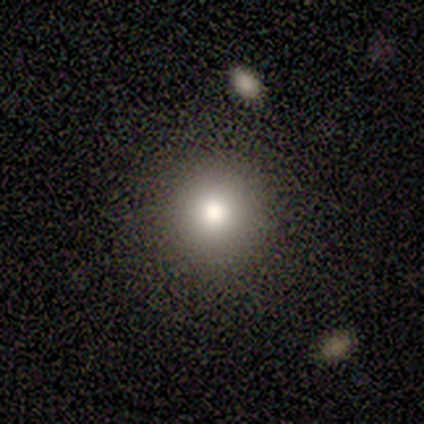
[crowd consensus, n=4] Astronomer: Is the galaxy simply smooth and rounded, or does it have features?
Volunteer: smooth — 50%.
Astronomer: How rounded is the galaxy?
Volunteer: round — 100%.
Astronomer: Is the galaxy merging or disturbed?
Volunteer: none — 100%.